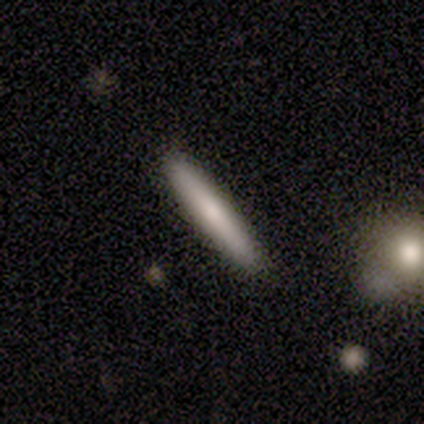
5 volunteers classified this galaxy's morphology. Smooth or featured?
  - smooth: 60% *
  - featured or disk: 40%
  - star or artifact: 0%
How rounded?
  - cigar-shaped: 100% *
  - round: 0%
  - in between: 0%
Merging?
  - none: 60% *
  - major disturbance: 40%
  - minor disturbance: 0%
  - merger: 0%